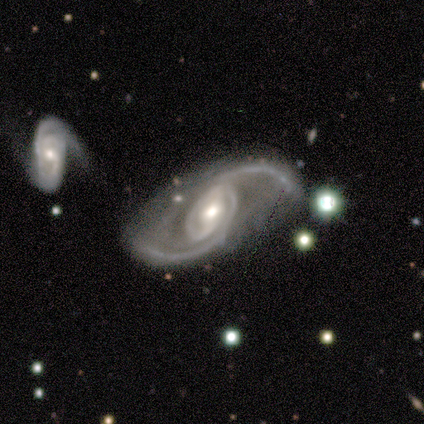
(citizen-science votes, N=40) smooth-or-featured: featured or disk: 98% | smooth: 2% | star or artifact: 0%
  disk-edge-on: no: 95% | yes: 5%
    bar: strong: 41% (tied) | weak: 41% (tied) | no: 19%
    has-spiral-arms: yes: 100% | no: 0%
      spiral-winding: loose: 54% | medium: 32% | tight: 14%
      spiral-arm-count: 2: 89% | 3: 8% | 1: 3% | 4: 0% | more than 4: 0% | can't tell: 0%
    bulge-size: moderate: 62% | small: 22% | large: 16% | dominant: 0% | none: 0%
  merging: none: 68% | minor disturbance: 20% | merger: 10% | major disturbance: 2%